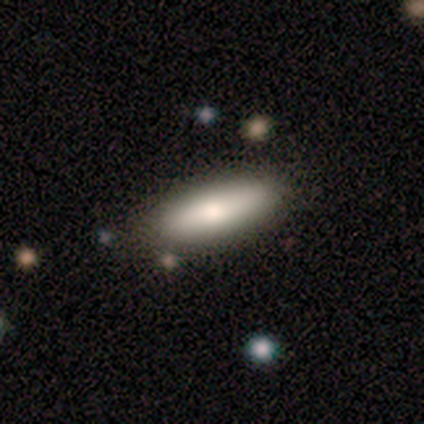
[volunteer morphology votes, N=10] smooth_or_featured: smooth (p=0.70) [alt: featured or disk p=0.30]
how_rounded: cigar-shaped (p=0.57) [alt: in between p=0.43]
merging: none (p=1.00)